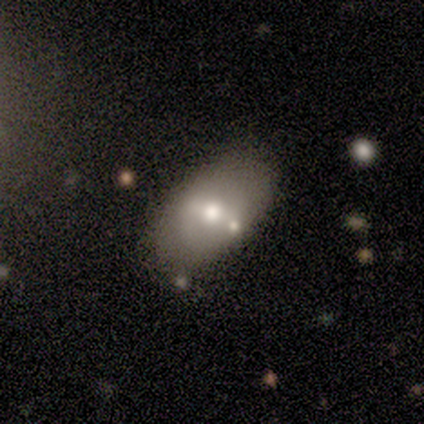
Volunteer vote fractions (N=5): A featured or disk galaxy (60%) with no bar (100%), no spiral arms (100%) and a moderate central bulge (100%).

Vote fractions:
- Smooth or featured? featured or disk: 60% / smooth: 40% / star or artifact: 0%
- Edge-on disk? no: 100% / yes: 0%
- Bar? no: 100% / strong: 0% / weak: 0%
- Spiral arms? no: 100% / yes: 0%
- Bulge size? moderate: 100% / dominant: 0% / large: 0% / small: 0% / none: 0%
- Merging? none: 80% / merger: 20% / minor disturbance: 0% / major disturbance: 0%